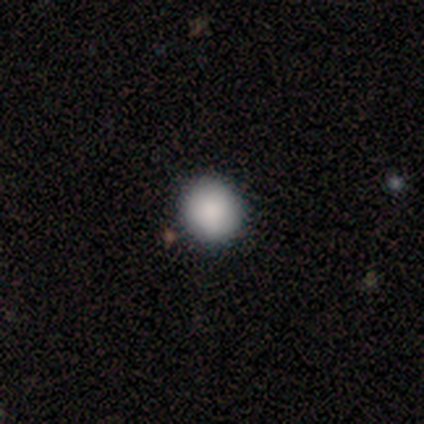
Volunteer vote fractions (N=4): smooth-or-featured: smooth: 100% | featured or disk: 0% | star or artifact: 0%
  how-rounded: round: 100% | in between: 0% | cigar-shaped: 0%
  merging: none: 100% | minor disturbance: 0% | major disturbance: 0% | merger: 0%